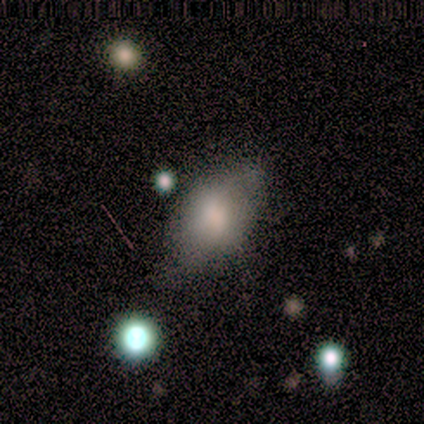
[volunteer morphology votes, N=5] smooth 80%, featured or disk 20%, star or artifact 0%. Down the decision tree: how rounded — in between (100%); merging — minor disturbance (60%).